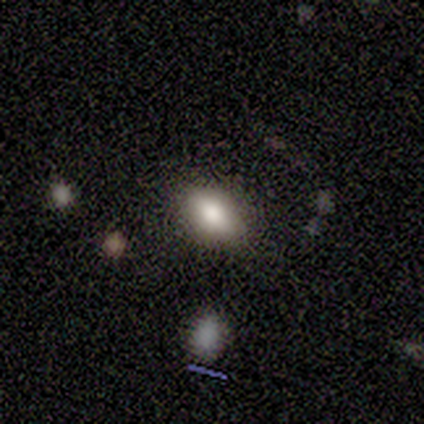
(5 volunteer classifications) smooth 80%, featured or disk 20%, star or artifact 0%. Down the decision tree: how rounded — in between (100%); merging — none (80%).